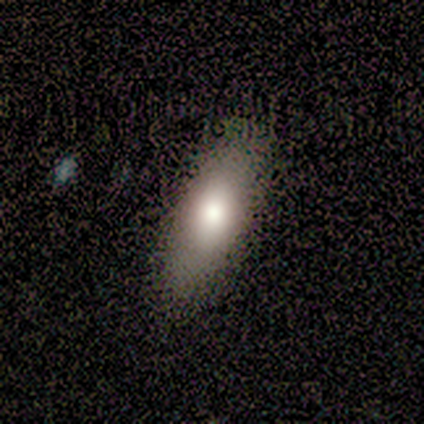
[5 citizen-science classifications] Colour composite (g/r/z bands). It shows a smooth galaxy with no disk features (100%) that is in between round and cigar-shaped (80%). Merging: none (60%).